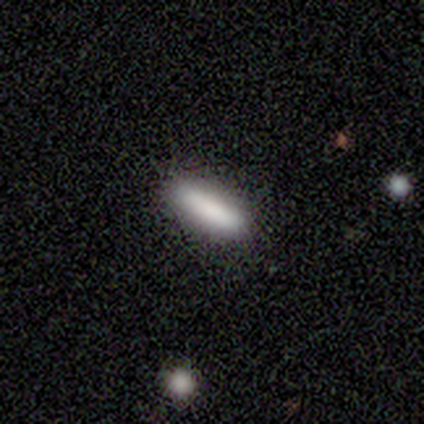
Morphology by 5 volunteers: A smooth galaxy with no disk features (80%) that is cigar-shaped (75%).

Vote fractions:
- Smooth or featured? smooth: 80% / star or artifact: 20% / featured or disk: 0%
- How rounded? cigar-shaped: 75% / in between: 25% / round: 0%
- Merging? none: 100% / minor disturbance: 0% / major disturbance: 0% / merger: 0%